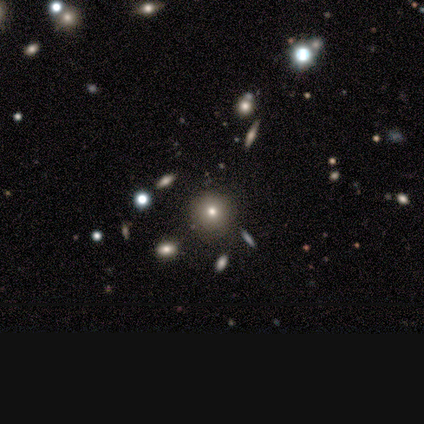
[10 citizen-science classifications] smooth_or_featured: smooth (p=0.50) [alt: star or artifact p=0.30]
how_rounded: round (p=1.00)
merging: none (p=1.00)